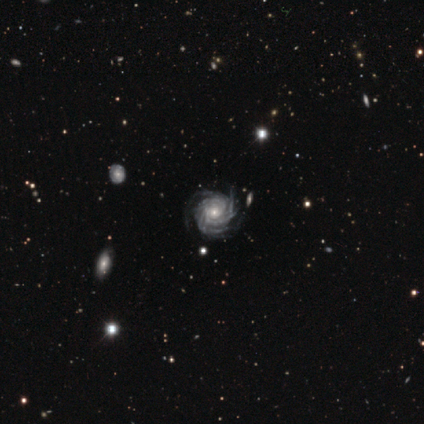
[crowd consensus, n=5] Smooth or featured? featured or disk (100%)
Edge-on disk? no (100%)
Bar? no (100%)
Spiral arms? yes (100%)
Spiral winding? tight (80%)
Spiral arm count? more than 4 (60%)
Bulge size? moderate (40%, tied with small)
Merging? none (100%)